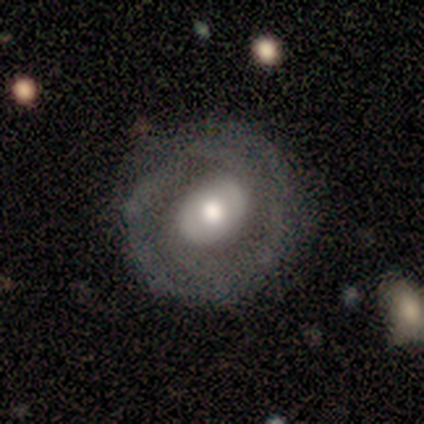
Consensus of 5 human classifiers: featured or disk 60%, smooth 40%, star or artifact 0%. Down the decision tree: edge-on disk — no (100%); bar — no (67%); spiral arms — yes (67%); spiral arm count — 2 (50%, tied with can't tell); spiral winding — medium (50%, tied with loose); bulge size — large (67%); merging — none (100%).